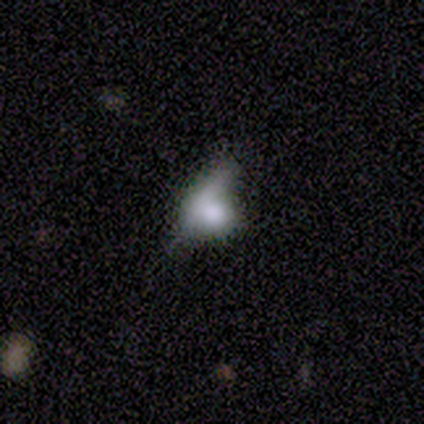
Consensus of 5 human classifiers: Smooth or featured: smooth — 80% (featured or disk — 20%)
How rounded: round — 75% (in between — 25%)
Merging: none — 40% (minor disturbance — 20%)